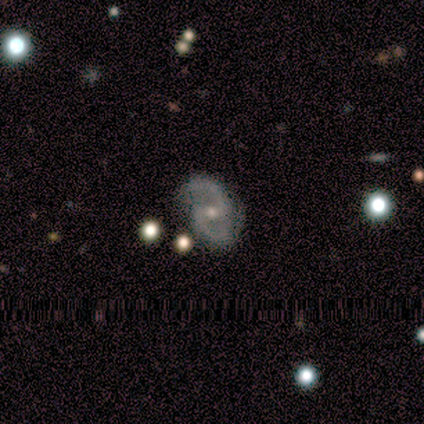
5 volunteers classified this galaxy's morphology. This appears to be a featured or disk galaxy (80%) with a weak bar (50%, tied with no), 2 (75%) medium (75%) spiral arms (100%) and a small central bulge (75%). Merging: none (75%).